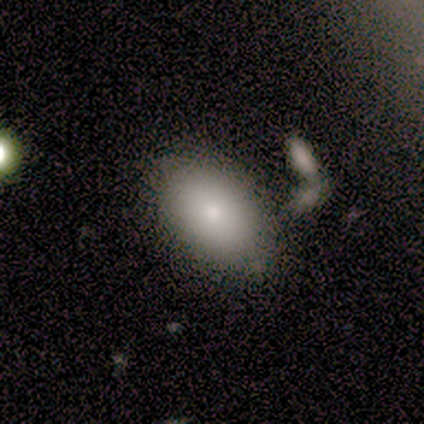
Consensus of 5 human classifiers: smooth 60%, featured or disk 40%, star or artifact 0%. Down the decision tree: how rounded — in between (100%); merging — none (60%).